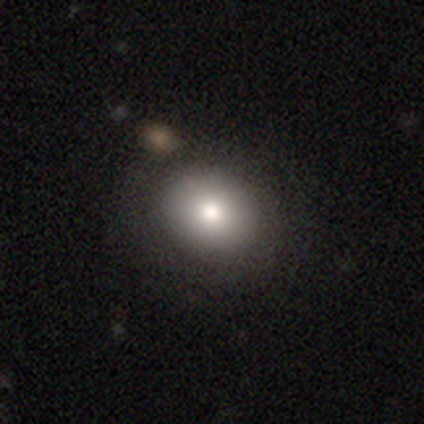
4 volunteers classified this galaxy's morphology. A smooth galaxy with no disk features (75%) that is round (67%).

Vote fractions:
- Smooth or featured? smooth: 75% / star or artifact: 25% / featured or disk: 0%
- How rounded? round: 67% / in between: 33% / cigar-shaped: 0%
- Merging? none: 67% / merger: 33% / minor disturbance: 0% / major disturbance: 0%